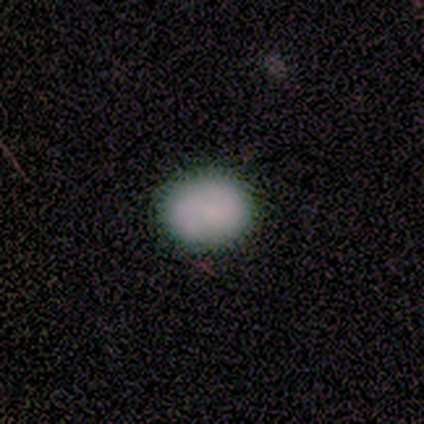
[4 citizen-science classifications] Smooth or featured: smooth — 75% (star or artifact — 25%)
How rounded: round — 100%
Merging: none — 100%